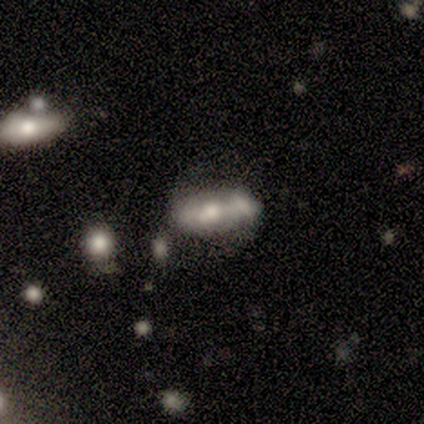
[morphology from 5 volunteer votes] featured or disk 60%, smooth 40%, star or artifact 0%. Down the decision tree: edge-on disk — no (100%); bar — no (100%); spiral arms — no (100%); bulge size — moderate (67%); merging — merger (60%).